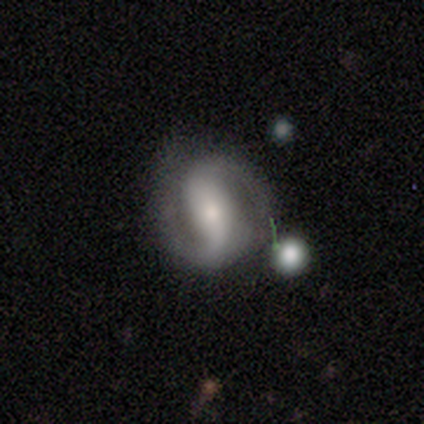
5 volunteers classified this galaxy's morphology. featured or disk 100%, smooth 0%, star or artifact 0%. Down the decision tree: edge-on disk — no (100%); bar — no (60%); spiral arms — yes (80%); spiral arm count — 2 (100%); spiral winding — tight (75%); bulge size — moderate (60%); merging — none (80%).